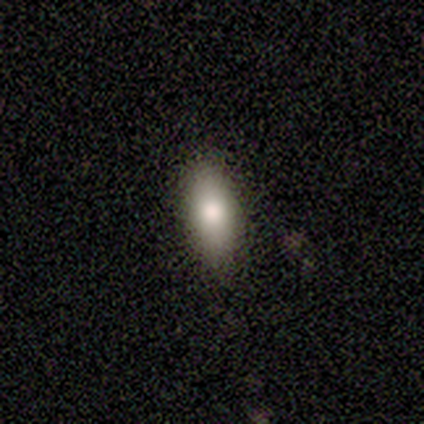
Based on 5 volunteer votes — Smooth or featured: smooth — 60% (featured or disk — 20%)
How rounded: in between — 100%
Merging: none — 100%